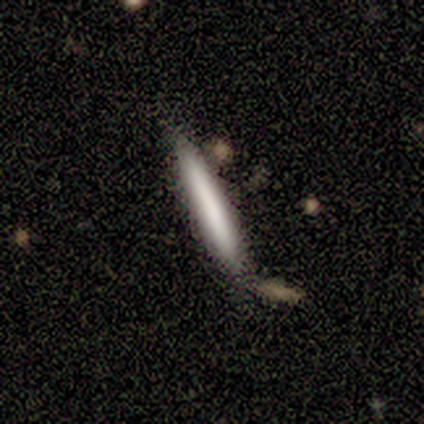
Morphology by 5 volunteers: Volunteers were most divided on "smooth or featured": smooth: 80%, featured or disk: 20%, star or artifact: 0%. More confident: how rounded — cigar-shaped (100%); merging — none (100%).